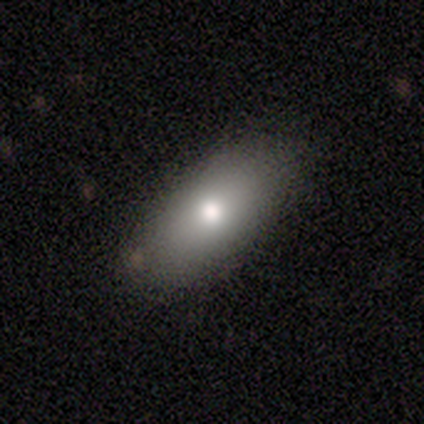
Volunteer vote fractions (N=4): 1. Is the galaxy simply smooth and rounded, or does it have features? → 100% smooth, 0% featured or disk, 0% star or artifact.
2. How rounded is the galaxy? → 100% in between, 0% round, 0% cigar-shaped.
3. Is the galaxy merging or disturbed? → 75% none, 25% minor disturbance, 0% major disturbance, 0% merger.